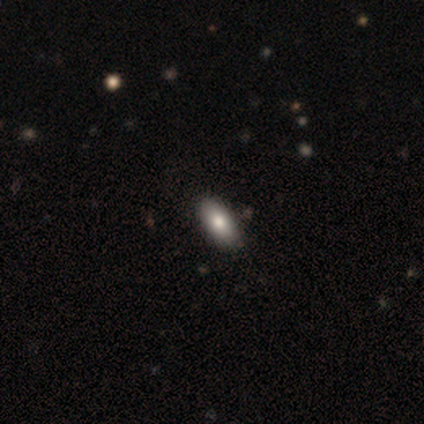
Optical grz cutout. It shows a smooth galaxy with no disk features (100%) that is in between round and cigar-shaped (100%). Merging: none (60%).